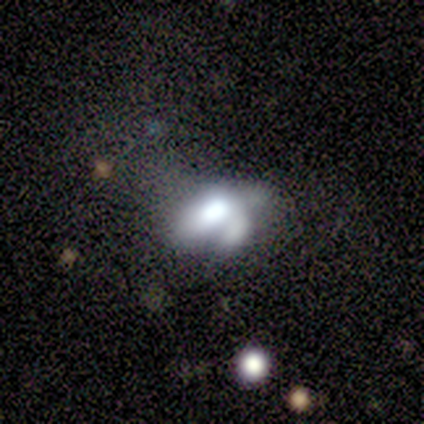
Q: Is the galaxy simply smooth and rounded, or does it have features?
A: featured or disk — 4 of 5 (80%).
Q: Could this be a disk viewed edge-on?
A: no — 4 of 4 (100%).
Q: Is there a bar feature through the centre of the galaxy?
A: no — 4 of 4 (100%).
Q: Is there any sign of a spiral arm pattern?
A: no — 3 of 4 (75%).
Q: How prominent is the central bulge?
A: moderate — 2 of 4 (50%).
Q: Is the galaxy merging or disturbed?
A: none — 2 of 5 (40%, tied with minor disturbance).